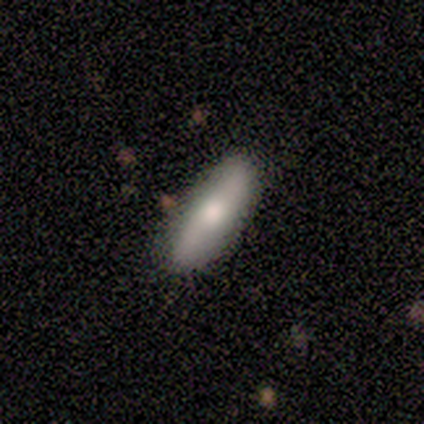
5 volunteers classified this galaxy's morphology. Volunteers were most divided on "bar" (2-way tie): strong: 50%, no: 50%, weak: 0%. More confident: spiral arms — no (100%); bulge size — moderate (100%); merging — none (80%); edge-on disk — no (67%); smooth or featured — featured or disk (60%).